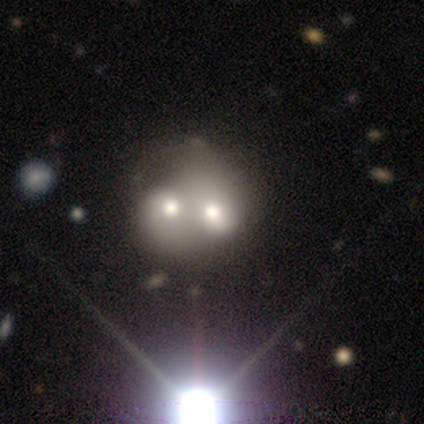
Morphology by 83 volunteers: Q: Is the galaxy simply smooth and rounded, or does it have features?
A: featured or disk — 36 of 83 (43%).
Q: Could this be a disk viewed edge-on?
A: no — 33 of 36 (92%).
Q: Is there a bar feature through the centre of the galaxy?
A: no — 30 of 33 (91%).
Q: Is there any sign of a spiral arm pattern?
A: no — 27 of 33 (82%).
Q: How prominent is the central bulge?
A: moderate — 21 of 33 (64%).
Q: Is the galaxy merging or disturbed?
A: merger — 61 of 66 (92%).